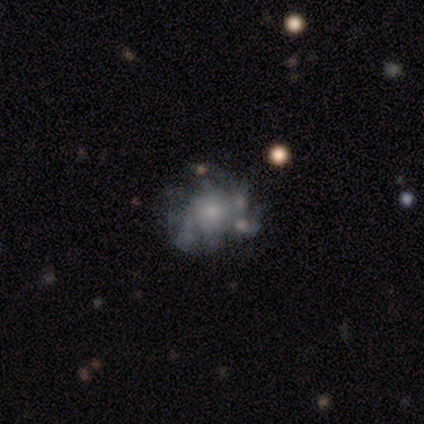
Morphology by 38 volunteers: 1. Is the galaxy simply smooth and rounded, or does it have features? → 76% featured or disk, 13% star or artifact, 11% smooth.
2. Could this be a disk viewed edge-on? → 100% no, 0% yes.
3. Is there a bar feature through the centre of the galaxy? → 100% no, 0% strong, 0% weak.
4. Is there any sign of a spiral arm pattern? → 66% no, 34% yes.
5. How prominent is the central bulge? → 59% small, 34% moderate, 3% dominant, 3% large, 0% none.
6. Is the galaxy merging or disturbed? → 30% none, 24% minor disturbance, 18% major disturbance, 9% merger.